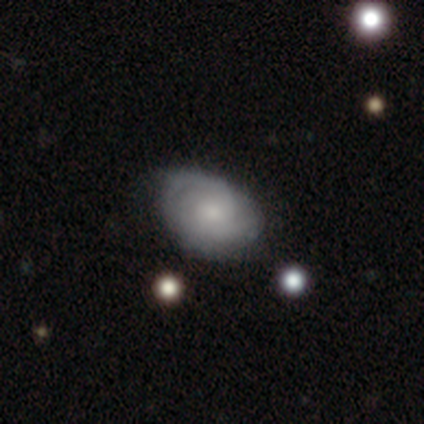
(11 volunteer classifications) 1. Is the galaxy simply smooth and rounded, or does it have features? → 64% featured or disk, 36% smooth, 0% star or artifact.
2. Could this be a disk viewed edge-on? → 100% no, 0% yes.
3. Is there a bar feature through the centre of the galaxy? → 86% no, 14% weak, 0% strong.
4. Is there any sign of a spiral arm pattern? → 100% yes, 0% no.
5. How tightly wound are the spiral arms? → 71% medium, 29% tight, 0% loose.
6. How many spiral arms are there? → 43% 2, 29% 3, 29% can't tell, 0% 1, 0% 4, 0% more than 4.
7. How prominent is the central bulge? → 71% small, 14% large, 14% moderate, 0% dominant, 0% none.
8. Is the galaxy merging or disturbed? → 55% none, 45% minor disturbance, 0% major disturbance, 0% merger.